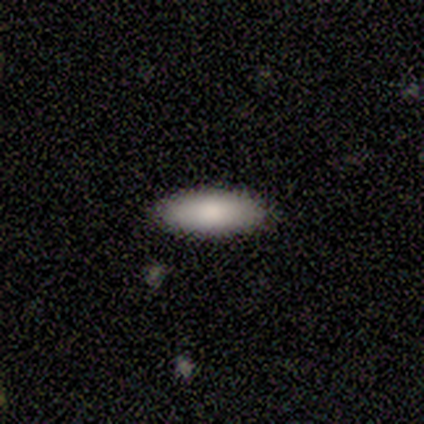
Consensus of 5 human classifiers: Volunteers were most divided on "how rounded": in between: 80%, cigar-shaped: 20%, round: 0%. More confident: smooth or featured — smooth (100%); merging — none (80%).